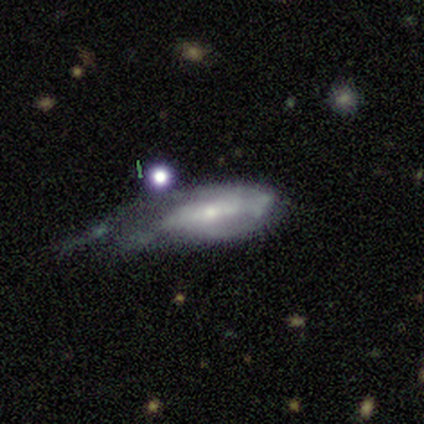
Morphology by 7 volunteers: This appears to be a featured or disk galaxy (71%) with no bar (50%), 2 (67%) loose (67%) spiral arms (75%) and a moderate central bulge (50%, tied with small). Merging: major disturbance (71%).